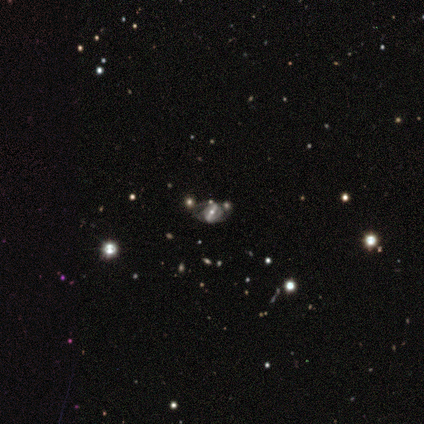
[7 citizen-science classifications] This appears to be a featured or disk galaxy (100%) with a strong bar (71%), medium (57%) spiral arms (100%) and a moderate central bulge (86%). Merging: none (43%).